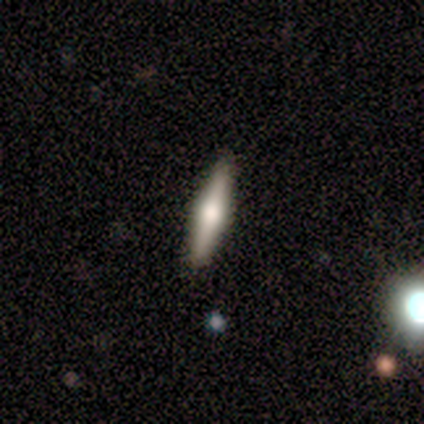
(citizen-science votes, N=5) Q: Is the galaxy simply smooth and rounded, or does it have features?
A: featured or disk — 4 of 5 (80%).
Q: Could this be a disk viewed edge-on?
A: yes — 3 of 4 (75%).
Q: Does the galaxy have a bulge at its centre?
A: rounded — 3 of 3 (100%).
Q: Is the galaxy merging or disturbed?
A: none — 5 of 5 (100%).